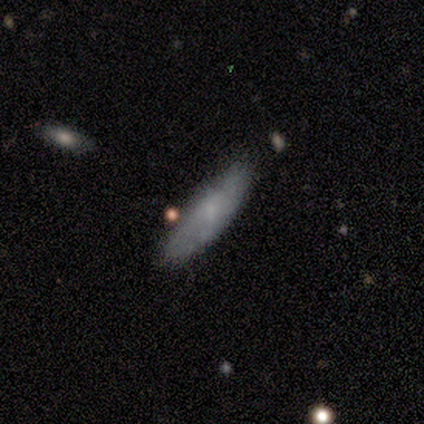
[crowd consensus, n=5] Q: Smooth or featured?
A: smooth (100%)
Q: How rounded?
A: in between (80%); runner-up: cigar-shaped (20%)
Q: Merging?
A: none (80%); runner-up: minor disturbance (20%)